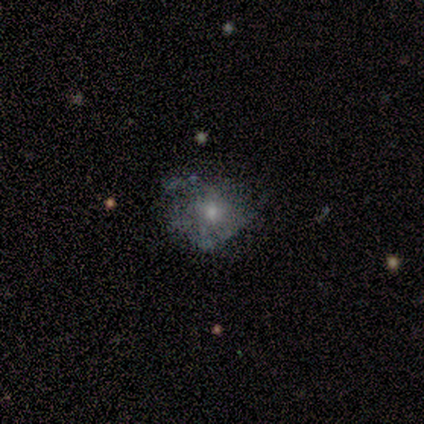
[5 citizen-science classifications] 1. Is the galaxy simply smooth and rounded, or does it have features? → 60% featured or disk, 40% smooth, 0% star or artifact.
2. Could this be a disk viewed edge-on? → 100% no, 0% yes.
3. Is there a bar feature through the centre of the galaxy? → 100% no, 0% strong, 0% weak.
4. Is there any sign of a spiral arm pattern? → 100% no, 0% yes.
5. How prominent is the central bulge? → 100% small, 0% dominant, 0% large, 0% moderate, 0% none.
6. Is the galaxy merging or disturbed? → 60% none, 40% major disturbance, 0% minor disturbance, 0% merger.